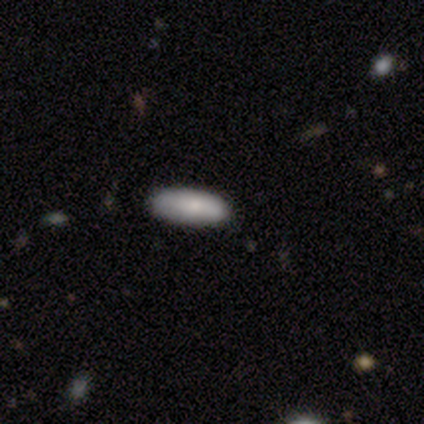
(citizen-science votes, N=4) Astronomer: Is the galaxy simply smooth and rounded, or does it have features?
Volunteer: smooth — 75%.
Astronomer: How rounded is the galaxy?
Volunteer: in between — 67%.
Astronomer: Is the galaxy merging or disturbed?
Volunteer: none — 67%.